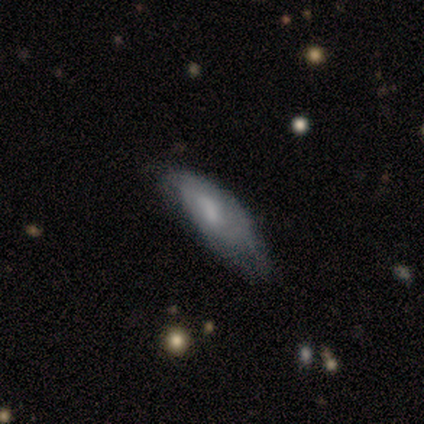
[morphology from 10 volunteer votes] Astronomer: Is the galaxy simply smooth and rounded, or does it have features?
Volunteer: smooth — 70%.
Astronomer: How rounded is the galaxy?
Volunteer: in between — 86%.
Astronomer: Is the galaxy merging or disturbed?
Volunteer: minor disturbance — 70%.